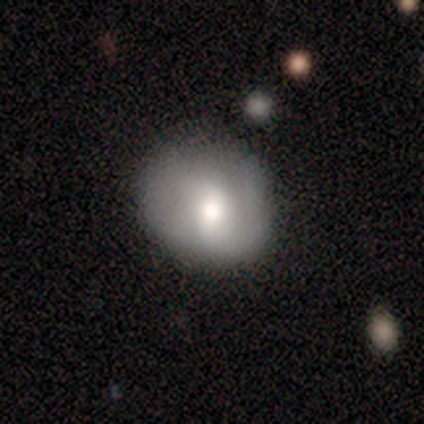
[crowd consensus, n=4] A smooth galaxy with no disk features (75%) that is round (100%). Merging: none (75%).